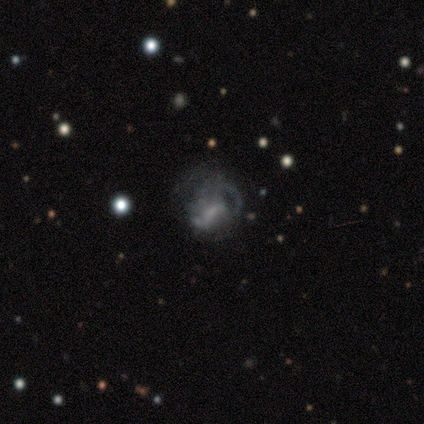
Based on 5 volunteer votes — This is likely a featured or disk galaxy (60%). It is clearly not viewed edge-on (100%). Bar: likely weak (67%). Spiral arm pattern: clearly yes (100%). Spiral arm count: likely 2 (67%). Spiral winding: likely loose (67%). Central bulge: clearly small (100%). Merging: possibly none (50%, tied with major disturbance).